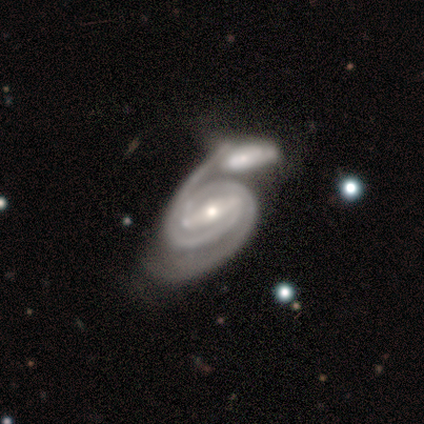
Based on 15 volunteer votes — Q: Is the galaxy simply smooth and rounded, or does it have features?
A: featured or disk — 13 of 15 (87%).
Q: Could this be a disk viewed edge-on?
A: no — 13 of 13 (100%).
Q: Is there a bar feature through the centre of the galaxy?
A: strong — 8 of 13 (62%).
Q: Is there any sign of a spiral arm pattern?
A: yes — 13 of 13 (100%).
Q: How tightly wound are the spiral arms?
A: tight — 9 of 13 (69%).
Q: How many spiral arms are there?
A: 2 — 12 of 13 (92%).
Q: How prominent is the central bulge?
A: moderate — 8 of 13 (62%).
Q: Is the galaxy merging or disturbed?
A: merger — 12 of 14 (86%).